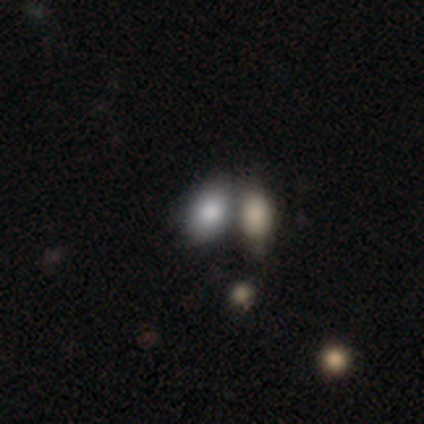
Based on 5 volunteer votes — This appears to be a smooth galaxy with no disk features (80%) that is in between round and cigar-shaped (75%). Merging: merger (60%).